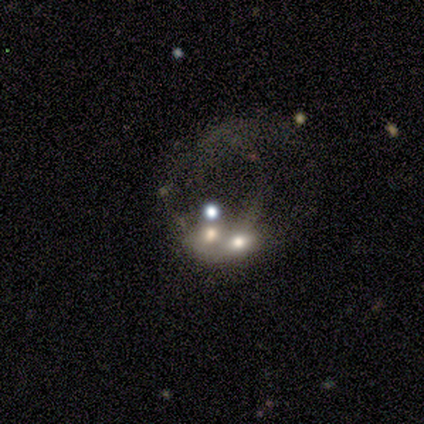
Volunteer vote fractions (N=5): This is likely a featured or disk galaxy (60%). It is clearly not viewed edge-on (100%). Bar: clearly no (100%). Spiral arm pattern: clearly no (100%). Central bulge: marginally dominant (33%, tied with moderate and none). Merging: possibly minor disturbance (50%).